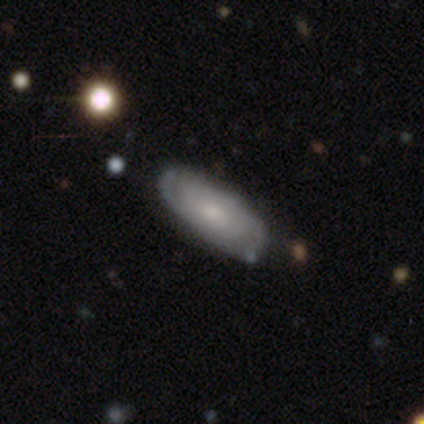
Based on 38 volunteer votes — Volunteers were most divided on "bulge size": moderate: 58%, small: 42%, dominant: 0%, large: 0%, none: 0%. More confident: edge-on disk — no (90%); spiral arms — yes (89%); bar — no (84%); merging — none (71%); spiral winding — tight (71%); spiral arm count — 2 (59%); smooth or featured — featured or disk (55%).